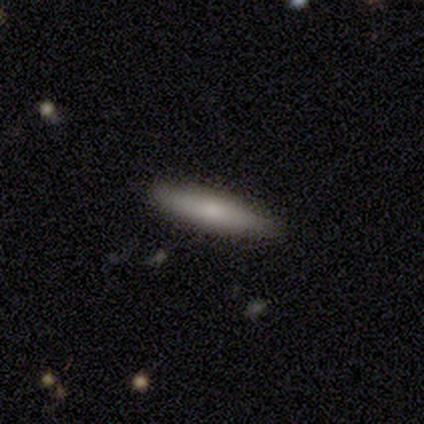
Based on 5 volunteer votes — Q: Smooth or featured?
A: smooth (60%); runner-up: featured or disk (40%)
Q: How rounded?
A: cigar-shaped (67%); runner-up: in between (33%)
Q: Merging?
A: none (80%); runner-up: minor disturbance (20%)